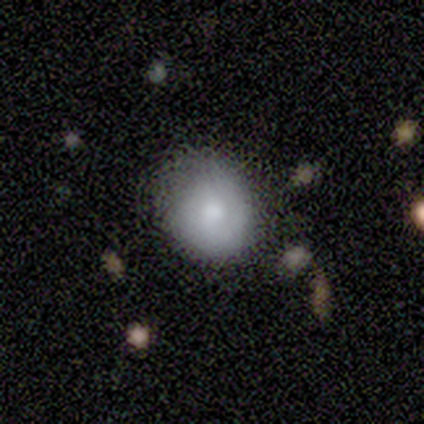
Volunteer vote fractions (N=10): smooth-or-featured: smooth: 90% | featured or disk: 10% | star or artifact: 0%
  how-rounded: round: 89% | in between: 11% | cigar-shaped: 0%
  merging: none: 90% | minor disturbance: 10% | major disturbance: 0% | merger: 0%